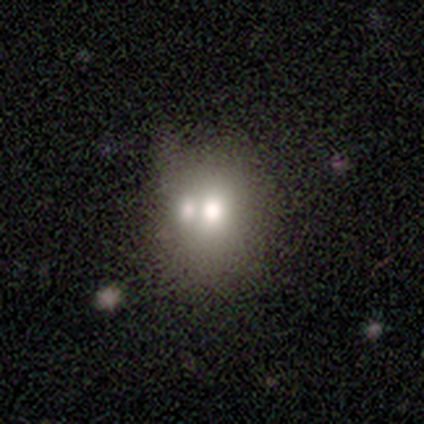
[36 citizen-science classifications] This is likely a smooth galaxy (75%). How rounded: likely round (63%). Merging: likely merger (67%).